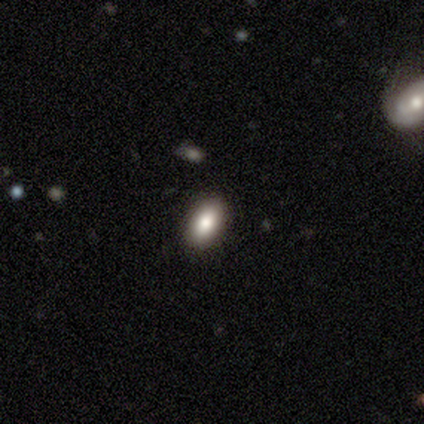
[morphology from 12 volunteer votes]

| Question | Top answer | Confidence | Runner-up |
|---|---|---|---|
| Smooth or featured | smooth | 100% | — |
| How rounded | in between | 100% | — |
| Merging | none | 92% | minor disturbance (8%) |